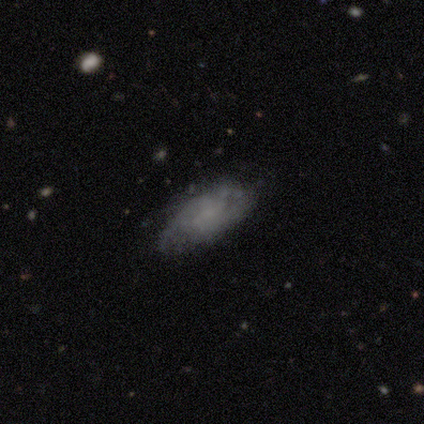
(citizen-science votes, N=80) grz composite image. It shows a featured or disk galaxy (62%) with no bar (65%), tight (43%) spiral arms (76%) and no central bulge (76%). Merging: none (35%).